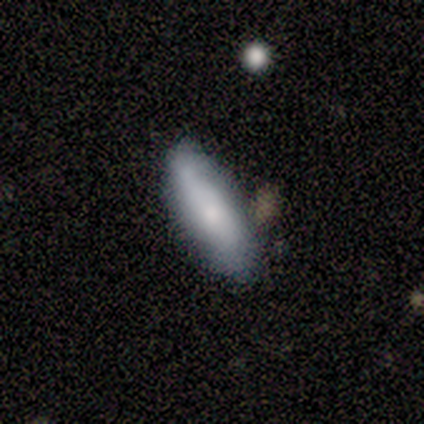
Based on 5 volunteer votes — smooth-or-featured: smooth: 80% | featured or disk: 20% | star or artifact: 0%
  how-rounded: in between: 50% (tied) | cigar-shaped: 50% (tied) | round: 0%
  merging: none: 80% | merger: 20% | minor disturbance: 0% | major disturbance: 0%